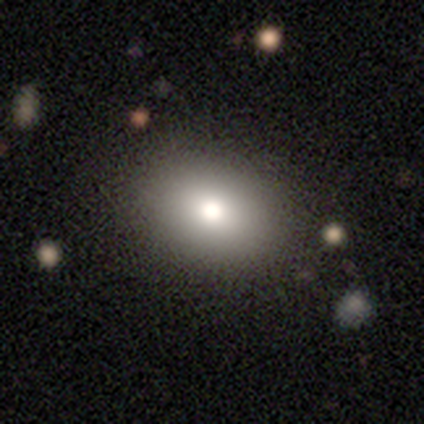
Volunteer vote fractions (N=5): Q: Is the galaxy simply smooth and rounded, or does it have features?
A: smooth — 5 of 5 (100%).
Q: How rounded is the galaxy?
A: in between — 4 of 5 (80%).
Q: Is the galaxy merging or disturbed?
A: none — 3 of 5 (60%).